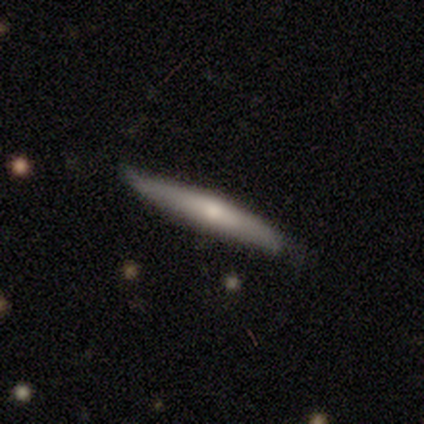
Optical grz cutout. It shows a smooth galaxy with no disk features (71%) that is cigar-shaped (100%). Merging: none (57%).